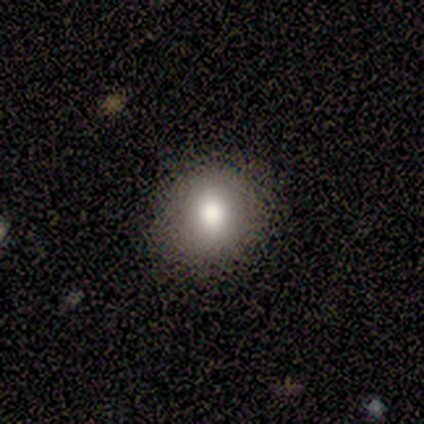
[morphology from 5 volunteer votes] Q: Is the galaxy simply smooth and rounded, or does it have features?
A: smooth — 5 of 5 (100%).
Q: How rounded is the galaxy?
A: round — 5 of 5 (100%).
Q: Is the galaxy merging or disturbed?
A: none — 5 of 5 (100%).